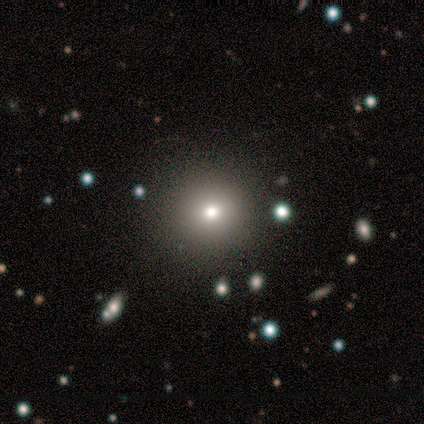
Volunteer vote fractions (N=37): Morphology: type=smooth (70%); roundness=round (96%); merging=none (93%).